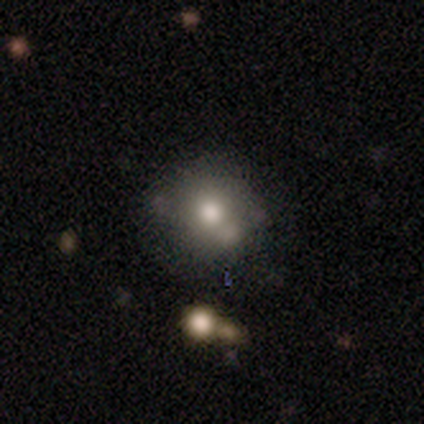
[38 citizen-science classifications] Volunteers were most divided on "merging": none: 52%, minor disturbance: 27%, merger: 15%, major disturbance: 6%. More confident: how rounded — round (81%); smooth or featured — smooth (71%).